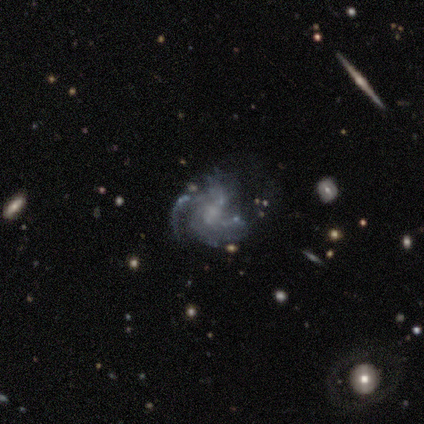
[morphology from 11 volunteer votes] Smooth or featured?
  - featured or disk: 91% *
  - smooth: 9%
  - star or artifact: 0%
Edge-on disk?
  - no: 100% *
  - yes: 0%
Bar?
  - no: 70% *
  - strong: 20%
  - weak: 10%
Spiral arms?
  - yes: 80% *
  - no: 20%
Spiral winding?
  - medium: 62% *
  - loose: 25%
  - tight: 12%
Spiral arm count?
  - 2: 38% *
  - 4: 25%
  - can't tell: 25%
  - 3: 12%
  - 1: 0%
  - more than 4: 0%
Bulge size?
  - moderate: 60% *
  - none: 30%
  - small: 10%
  - dominant: 0%
  - large: 0%
Merging?
  - none: 55% *
  - minor disturbance: 36%
  - major disturbance: 9%
  - merger: 0%